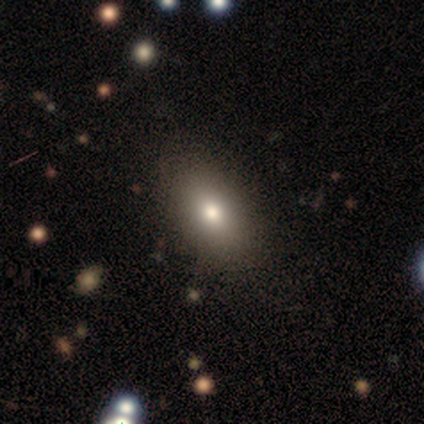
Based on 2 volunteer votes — smooth_or_featured: smooth (p=0.50) [tied with: star or artifact p=0.50]
how_rounded: in between (p=1.00)
merging: none (p=1.00)